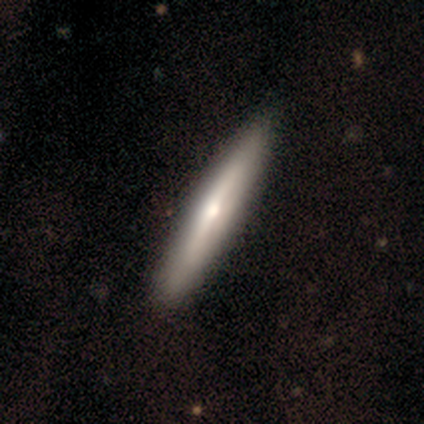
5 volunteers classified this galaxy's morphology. Smooth or featured? 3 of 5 (60%) said featured or disk. Edge-on disk? 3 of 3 (100%) said yes. Edge-on bulge? 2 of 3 (67%) said rounded. Merging? 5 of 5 (100%) said none.